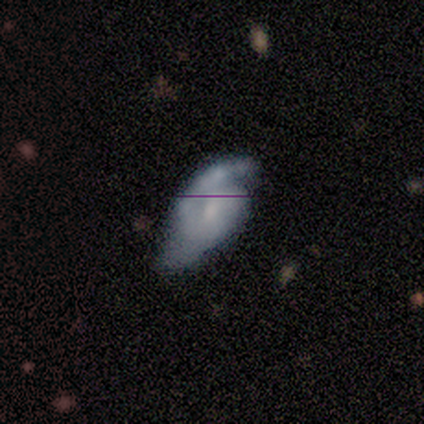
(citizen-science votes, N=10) A featured or disk galaxy (80%) with a weak bar (50%, tied with no), 2 (75%) tight (50%) spiral arms (100%) and a small central bulge (62%).

Vote fractions:
- Smooth or featured? featured or disk: 80% / smooth: 10% / star or artifact: 10%
- Edge-on disk? no: 100% / yes: 0%
- Bar? weak: 50% (tied) / no: 50% (tied) / strong: 0%
- Spiral arms? yes: 100% / no: 0%
- Spiral winding? tight: 50% / loose: 38% / medium: 12%
- Spiral arm count? 2: 75% / 1: 12% / can't tell: 12% / 3: 0% / 4: 0% / more than 4: 0%
- Bulge size? small: 62% / none: 25% / moderate: 12% / dominant: 0% / large: 0%
- Merging? none: 56% / minor disturbance: 22% / major disturbance: 22% / merger: 0%